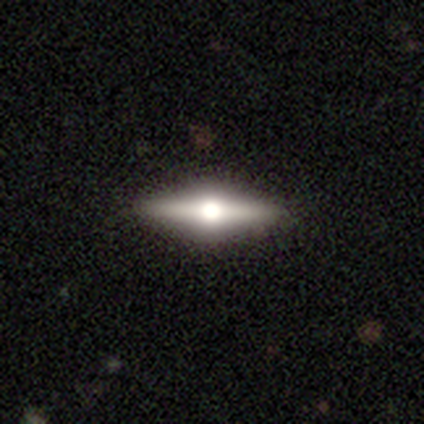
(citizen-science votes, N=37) A featured or disk galaxy (81%) viewed edge-on (100%) with a rounded central bulge (97%). Merging: none (91%).